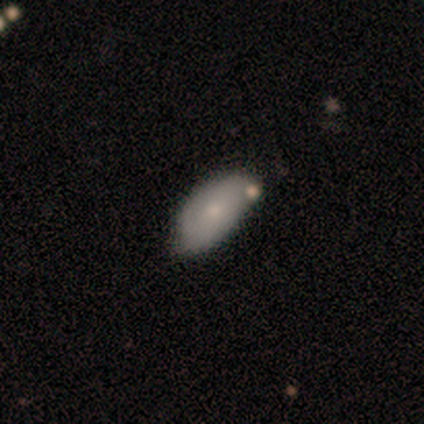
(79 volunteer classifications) smooth_or_featured: smooth (p=0.66) [alt: featured or disk p=0.32]
how_rounded: in between (p=0.98) [alt: round p=0.02]
merging: none (p=0.38) [alt: merger p=0.16]